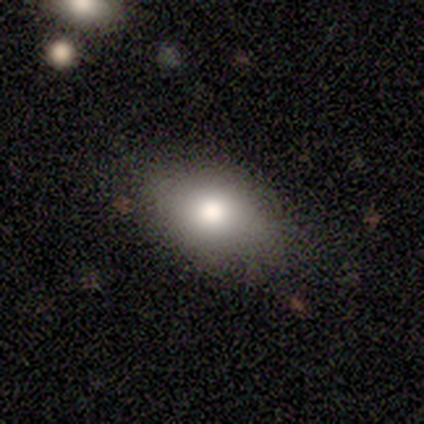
smooth-or-featured: smooth: 60% | featured or disk: 40% | star or artifact: 0%
  how-rounded: in between: 100% | round: 0% | cigar-shaped: 0%
  merging: none: 80% | minor disturbance: 20% | major disturbance: 0% | merger: 0%